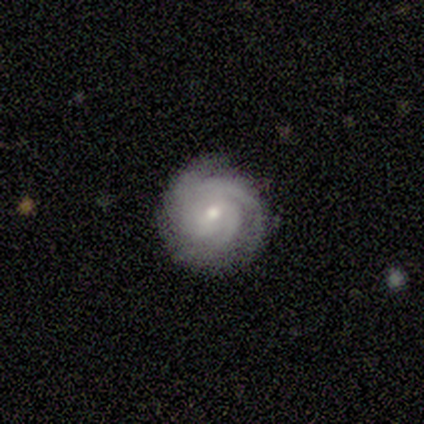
smooth-or-featured: featured or disk: 80% | smooth: 20% | star or artifact: 0%
  disk-edge-on: no: 100% | yes: 0%
    bar: no: 100% | strong: 0% | weak: 0%
    has-spiral-arms: yes: 100% | no: 0%
      spiral-winding: tight: 100% | medium: 0% | loose: 0%
      spiral-arm-count: 4: 50% | 3: 25% | can't tell: 25% | 1: 0% | 2: 0% | more than 4: 0%
    bulge-size: moderate: 75% | large: 25% | dominant: 0% | small: 0% | none: 0%
  merging: none: 80% | merger: 20% | minor disturbance: 0% | major disturbance: 0%